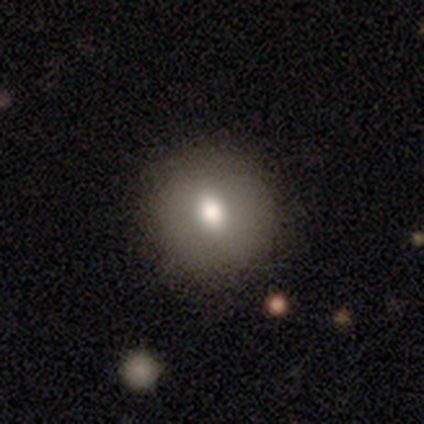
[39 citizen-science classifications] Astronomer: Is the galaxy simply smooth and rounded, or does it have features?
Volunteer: smooth — 64%.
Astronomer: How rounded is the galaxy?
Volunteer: round — 76%.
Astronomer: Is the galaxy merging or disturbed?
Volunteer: none — 86%.